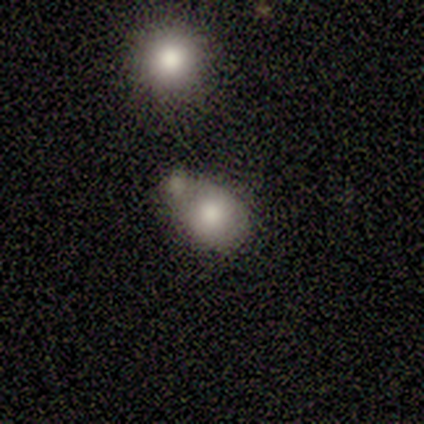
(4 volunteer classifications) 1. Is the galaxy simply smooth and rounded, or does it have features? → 100% smooth, 0% featured or disk, 0% star or artifact.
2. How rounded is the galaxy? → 50% round (tied), 50% in between (tied), 0% cigar-shaped.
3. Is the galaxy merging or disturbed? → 50% minor disturbance, 25% none, 25% merger, 0% major disturbance.